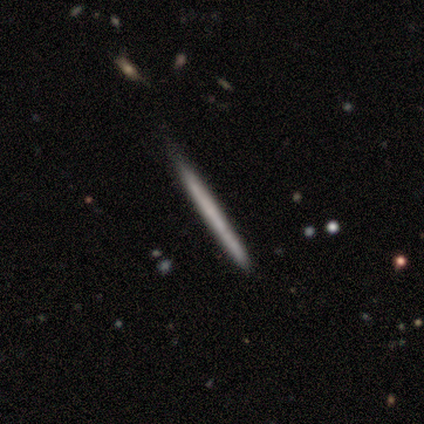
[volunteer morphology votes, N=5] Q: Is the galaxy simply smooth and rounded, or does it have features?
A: featured or disk — 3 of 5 (60%).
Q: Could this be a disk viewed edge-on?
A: yes — 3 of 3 (100%).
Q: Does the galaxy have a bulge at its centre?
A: none — 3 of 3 (100%).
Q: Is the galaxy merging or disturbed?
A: none — 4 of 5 (80%).